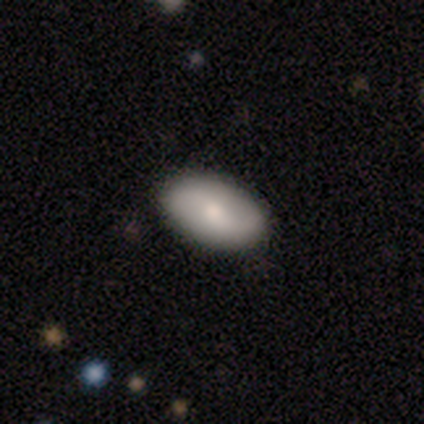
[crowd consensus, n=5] A smooth galaxy with no disk features (40%, tied with featured or disk) that is in between round and cigar-shaped (100%). Merging: none (75%).